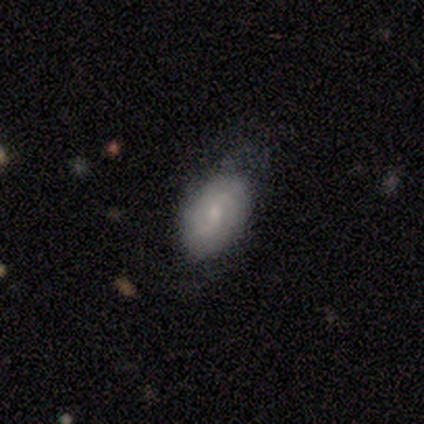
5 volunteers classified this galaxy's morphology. smooth_or_featured: smooth (p=0.80) [alt: star or artifact p=0.20]
how_rounded: in between (p=1.00)
merging: none (p=0.75) [alt: minor disturbance p=0.25]